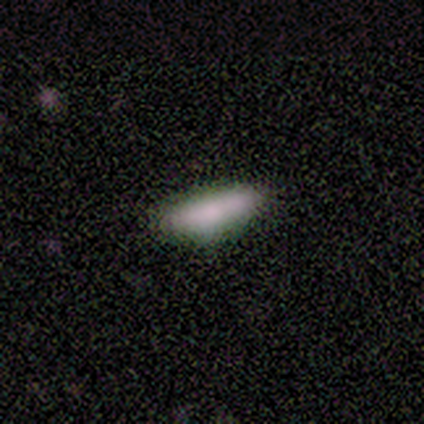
Overall: smooth (80%). How rounded: in between (75%). Merging: none (100%).